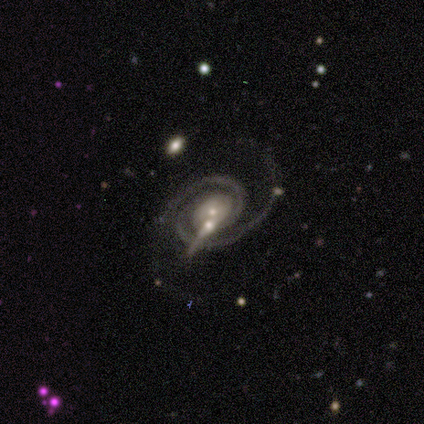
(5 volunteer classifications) A featured or disk galaxy (100%) with no bar (80%), 2 (100%) tight (60%) spiral arms (100%) and a small central bulge (60%). Merging: none (80%).